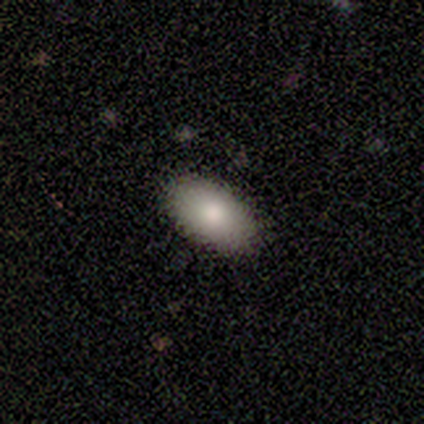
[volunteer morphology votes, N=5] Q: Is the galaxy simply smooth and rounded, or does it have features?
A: smooth — 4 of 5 (80%).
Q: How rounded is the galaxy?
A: in between — 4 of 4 (100%).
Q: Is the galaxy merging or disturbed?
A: none — 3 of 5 (60%).